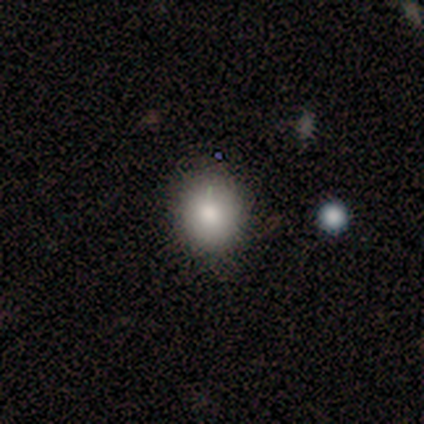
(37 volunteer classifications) Volunteers were most divided on "how rounded": round: 68%, in between: 29%, cigar-shaped: 3%. More confident: smooth or featured — smooth (92%); merging — none (83%).